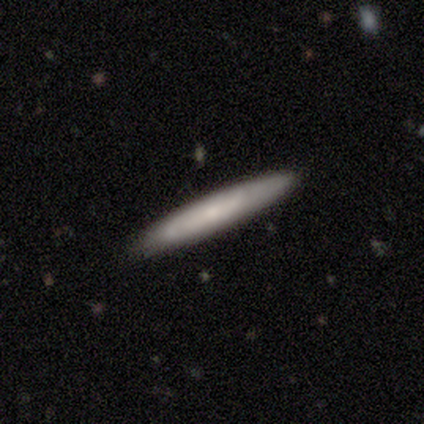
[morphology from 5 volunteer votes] Smooth or featured? 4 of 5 (80%) said smooth. How rounded? 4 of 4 (100%) said cigar-shaped. Merging? 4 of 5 (80%) said none.